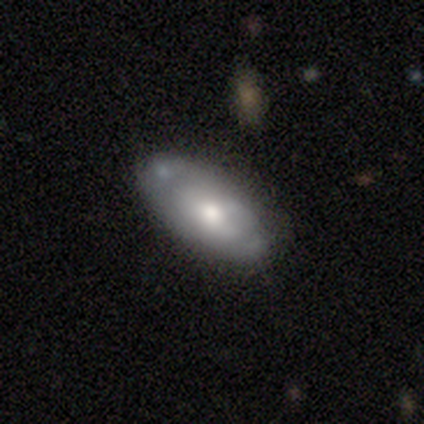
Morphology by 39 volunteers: A smooth galaxy with no disk features (54%) that is in between round and cigar-shaped (95%). Merging: none (65%).